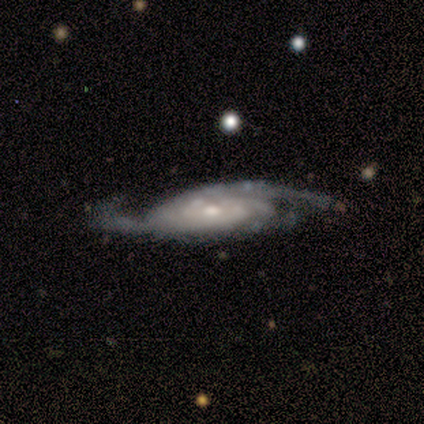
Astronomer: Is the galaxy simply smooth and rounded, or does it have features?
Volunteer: featured or disk — 100%.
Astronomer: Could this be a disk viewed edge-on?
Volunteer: no — 89%.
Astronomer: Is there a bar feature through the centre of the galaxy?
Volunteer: no — 75%.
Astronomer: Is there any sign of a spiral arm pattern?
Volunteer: yes — 100%.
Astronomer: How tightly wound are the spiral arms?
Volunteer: tight — 62%.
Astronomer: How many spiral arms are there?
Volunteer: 2 — 50%, tied with can't tell at 50%.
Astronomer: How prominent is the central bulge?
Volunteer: small — 75%.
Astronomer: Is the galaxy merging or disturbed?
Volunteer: none — 78%.